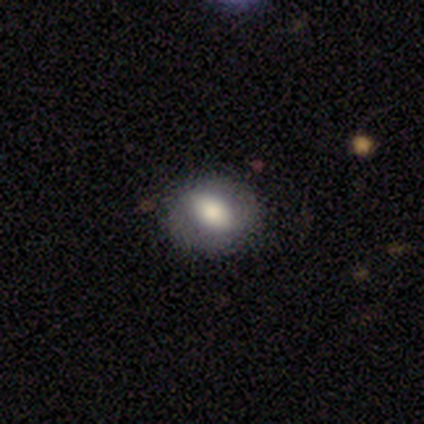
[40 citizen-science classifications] smooth-or-featured: smooth: 70% | featured or disk: 22% | star or artifact: 8%
  how-rounded: in between: 71% | round: 25% | cigar-shaped: 4%
  merging: none: 81% | minor disturbance: 11% | major disturbance: 8% | merger: 0%